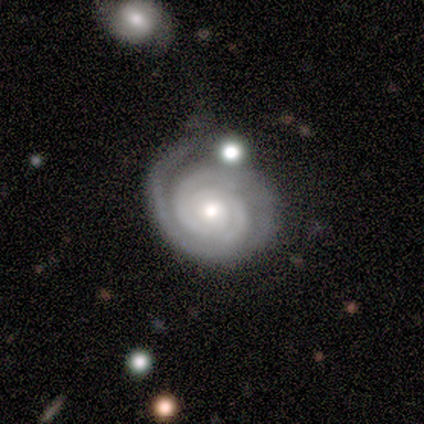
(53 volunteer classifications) Smooth or featured? featured or disk (94%)
Edge-on disk? no (98%)
Bar? no (92%)
Spiral arms? yes (100%)
Spiral winding? tight (94%)
Spiral arm count? 2 (63%)
Bulge size? moderate (55%)
Merging? none (72%)